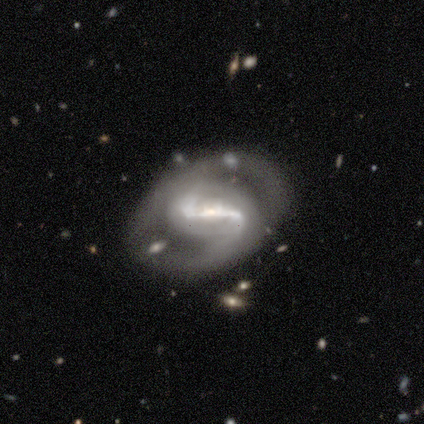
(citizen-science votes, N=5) A featured or disk galaxy (100%) with a strong bar (75%), 2 (100%) loose (75%) spiral arms (100%) and a small central bulge (75%). Merging: none (60%).